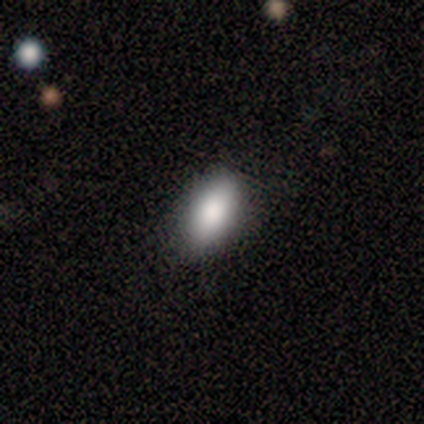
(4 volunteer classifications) Smooth or featured? 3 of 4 (75%) said smooth. How rounded? 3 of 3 (100%) said in between. Merging? 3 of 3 (100%) said none.